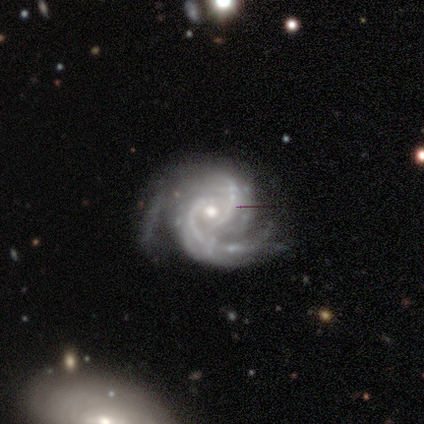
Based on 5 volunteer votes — Smooth or featured: featured or disk — 100%
Edge-on disk: no — 100%
Bar: no — 60% (weak — 40%)
Spiral arms: yes — 100%
Spiral winding: tight — 60% (medium — 40%)
Spiral arm count: 2 — 80% (4 — 20%)
Bulge size: moderate — 80% (small — 20%)
Merging: none — 80% (major disturbance — 20%)